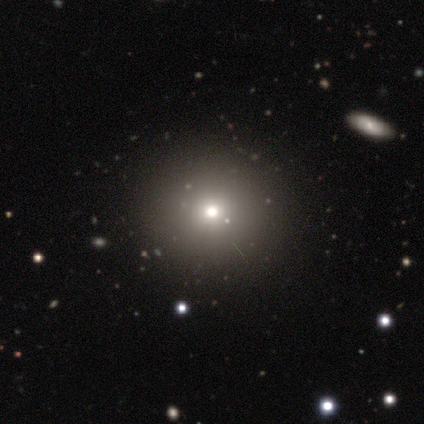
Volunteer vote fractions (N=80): Morphology: type=smooth (68%); roundness=round (96%); merging=none (92%).